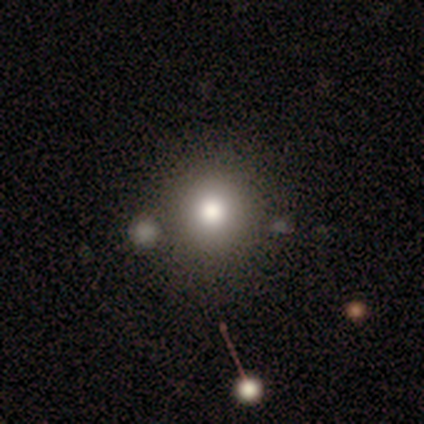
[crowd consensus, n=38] Smooth or featured?
  - smooth: 61% *
  - star or artifact: 21%
  - featured or disk: 18%
How rounded?
  - round: 100% *
  - in between: 0%
  - cigar-shaped: 0%
Merging?
  - none: 80% *
  - minor disturbance: 17%
  - major disturbance: 3%
  - merger: 0%